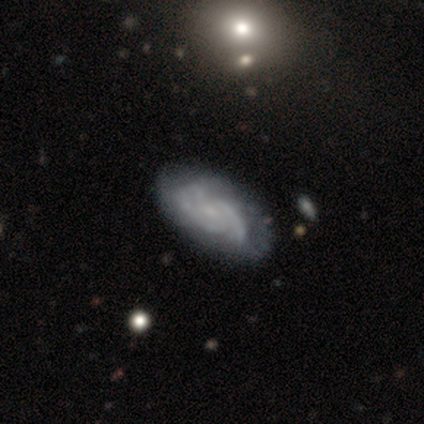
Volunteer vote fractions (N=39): This is clearly a featured or disk galaxy (87%). It is clearly not viewed edge-on (100%). Bar: likely no (74%). Spiral arm pattern: clearly yes (97%). Spiral arm count: marginally 2 (33%, tied with can't tell). Spiral winding: likely tight (64%). Central bulge: possibly small (59%). Merging: possibly none (51%).